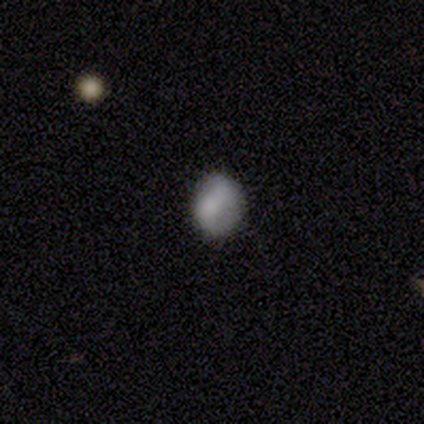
Overall: smooth (75%). How rounded: in between (67%; round 33%). Merging: none (100%).